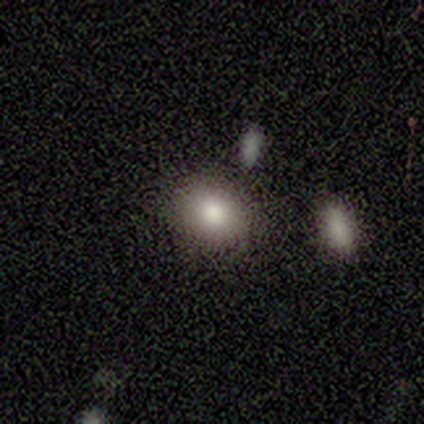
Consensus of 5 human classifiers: Q: Smooth or featured?
A: smooth (80%); runner-up: featured or disk (20%)
Q: How rounded?
A: in between (75%); runner-up: round (25%)
Q: Merging?
A: none (40%); tied with: minor disturbance (40%)